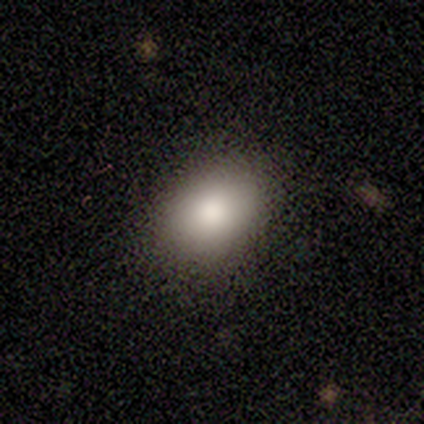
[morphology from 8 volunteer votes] smooth 75%, star or artifact 25%, featured or disk 0%. Down the decision tree: how rounded — in between (83%); merging — none (50%, tied with minor disturbance).